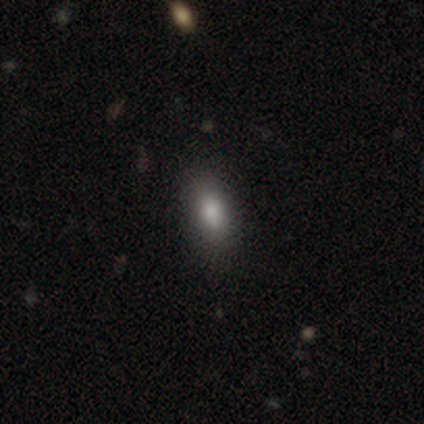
Smooth or featured?
  - smooth: 80% *
  - featured or disk: 20%
  - star or artifact: 0%
How rounded?
  - in between: 75% *
  - cigar-shaped: 25%
  - round: 0%
Merging?
  - none: 60% *
  - minor disturbance: 40%
  - major disturbance: 0%
  - merger: 0%